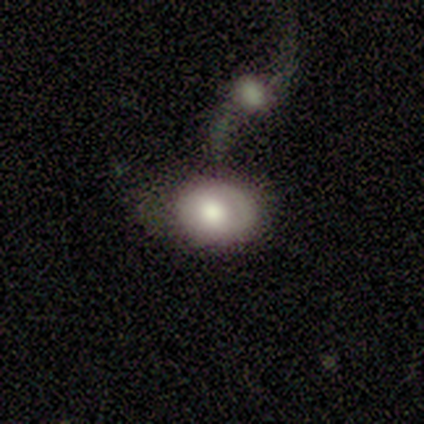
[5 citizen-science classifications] Smooth or featured? featured or disk (60%)
Edge-on disk? no (100%)
Bar? no (67%)
Spiral arms? no (67%)
Bulge size? large (100%)
Merging? merger (60%)